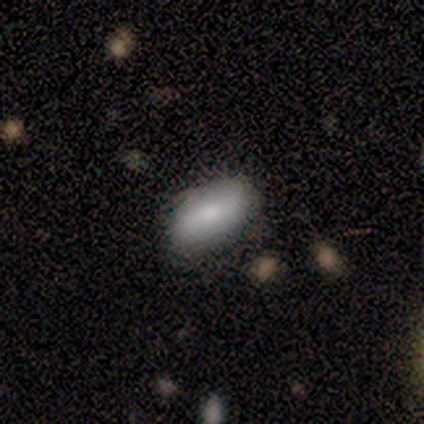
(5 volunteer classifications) This is clearly a smooth galaxy (80%). How rounded: clearly in between (100%). Merging: possibly none (50%, tied with minor disturbance).